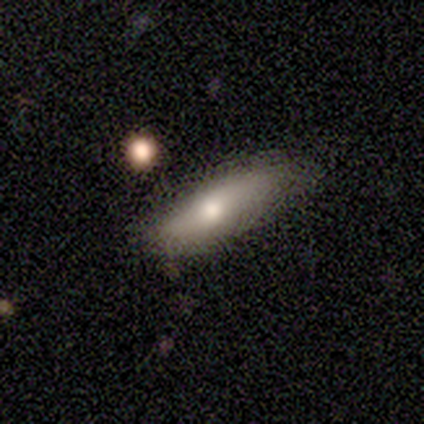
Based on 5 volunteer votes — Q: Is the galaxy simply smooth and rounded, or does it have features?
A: smooth — 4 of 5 (80%).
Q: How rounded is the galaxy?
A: in between — 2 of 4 (50%, tied with cigar-shaped).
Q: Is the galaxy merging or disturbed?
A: none — 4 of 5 (80%).